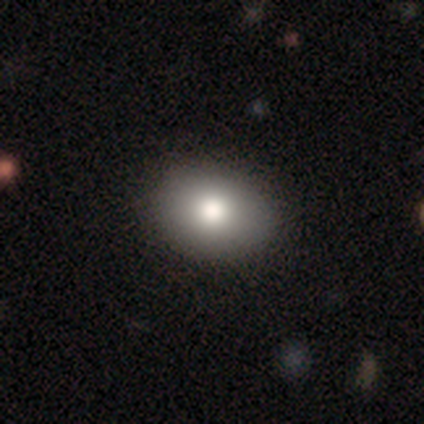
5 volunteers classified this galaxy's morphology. type=smooth (80%); roundness=in between (75%); merging=none (80%).